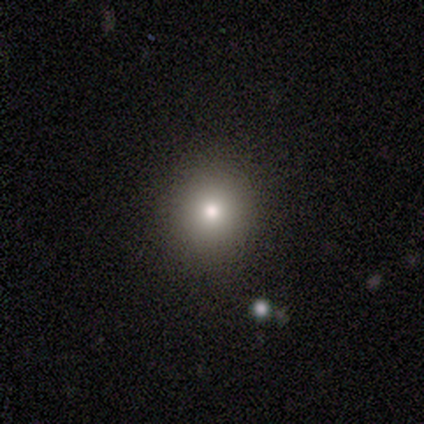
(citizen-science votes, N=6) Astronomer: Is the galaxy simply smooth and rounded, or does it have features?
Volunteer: smooth — 83%.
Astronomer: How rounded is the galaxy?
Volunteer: round — 100%.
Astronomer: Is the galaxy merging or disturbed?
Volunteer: none — 80%.